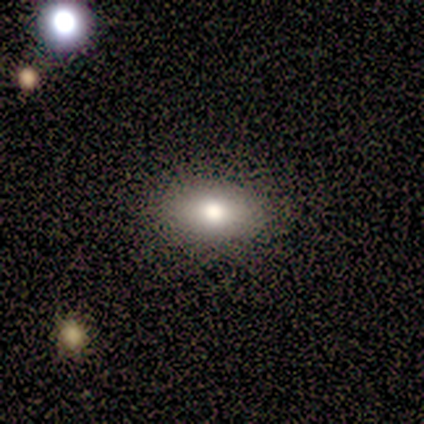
Smooth or featured: smooth — 80% (star or artifact — 20%)
How rounded: in between — 100%
Merging: none — 100%